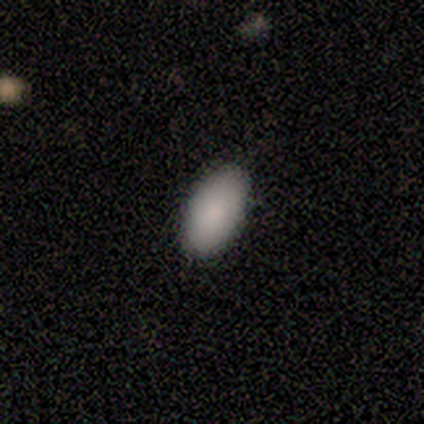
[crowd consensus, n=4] Overall: smooth (75%). How rounded: in between (100%). Merging: none (100%).